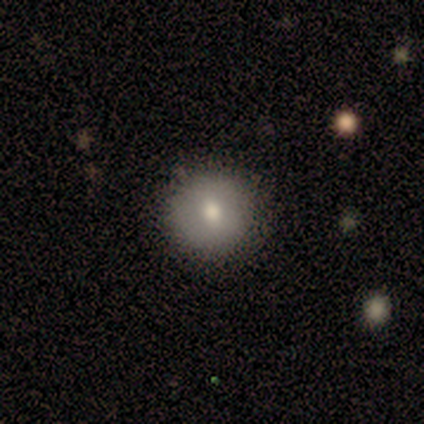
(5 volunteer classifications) Smooth or featured? 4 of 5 (80%) said smooth. How rounded? 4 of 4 (100%) said round. Merging? 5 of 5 (100%) said none.